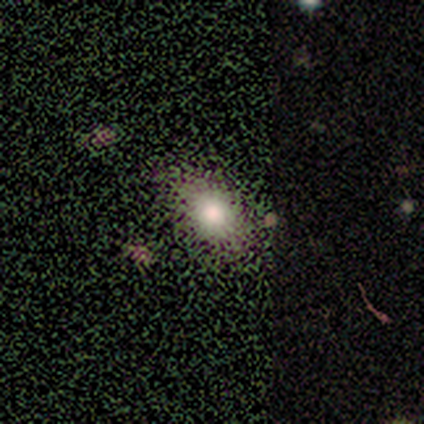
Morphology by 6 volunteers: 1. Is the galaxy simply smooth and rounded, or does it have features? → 83% smooth, 17% star or artifact, 0% featured or disk.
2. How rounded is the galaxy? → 100% in between, 0% round, 0% cigar-shaped.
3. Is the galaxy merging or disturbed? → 80% none, 20% minor disturbance, 0% major disturbance, 0% merger.